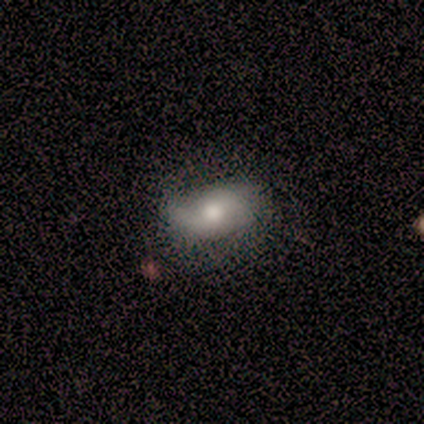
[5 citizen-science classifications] Smooth or featured: smooth — 80% (featured or disk — 20%)
How rounded: in between — 75% (round — 25%)
Merging: minor disturbance — 60% (none — 40%)